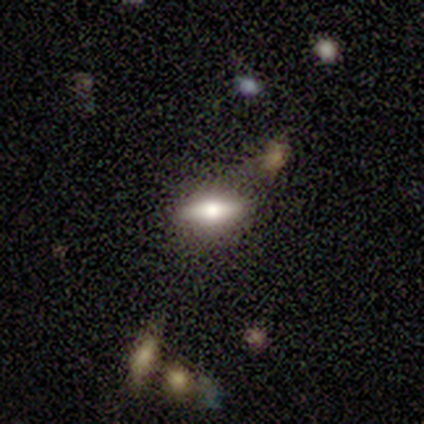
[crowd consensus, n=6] A featured or disk galaxy (67%) viewed edge-on (100%) with a rounded central bulge (100%).

Vote fractions:
- Smooth or featured? featured or disk: 67% / smooth: 33% / star or artifact: 0%
- Edge-on disk? yes: 100% / no: 0%
- Edge-on bulge? rounded: 100% / boxy: 0% / none: 0%
- Merging? none: 67% / minor disturbance: 17% / major disturbance: 17% / merger: 0%